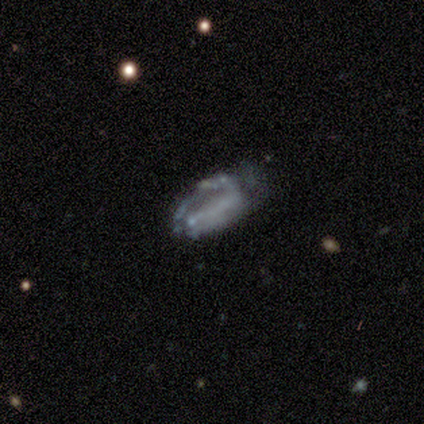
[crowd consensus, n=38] Smooth or featured?
  - featured or disk: 50% *
  - smooth: 47%
  - star or artifact: 3%
Edge-on disk?
  - no: 84% *
  - yes: 16%
Bar?
  - no: 81% *
  - weak: 19%
  - strong: 0%
Spiral arms?
  - no: 56% *
  - yes: 44%
Bulge size?
  - none: 94% *
  - small: 6%
  - dominant: 0%
  - large: 0%
  - moderate: 0%
Merging?
  - none: 32% *
  - minor disturbance: 30%
  - major disturbance: 30%
  - merger: 8%